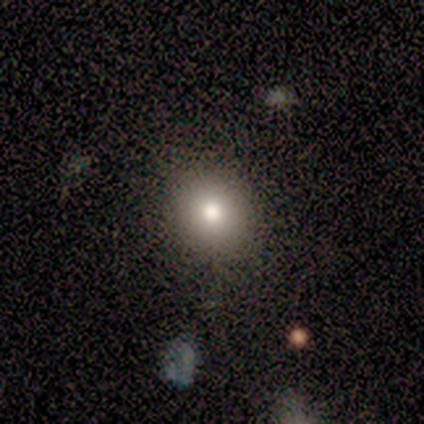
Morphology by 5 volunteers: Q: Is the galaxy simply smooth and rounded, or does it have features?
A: smooth — 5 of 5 (100%).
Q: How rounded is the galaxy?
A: round — 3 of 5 (60%).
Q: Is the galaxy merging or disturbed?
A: none — 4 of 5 (80%).